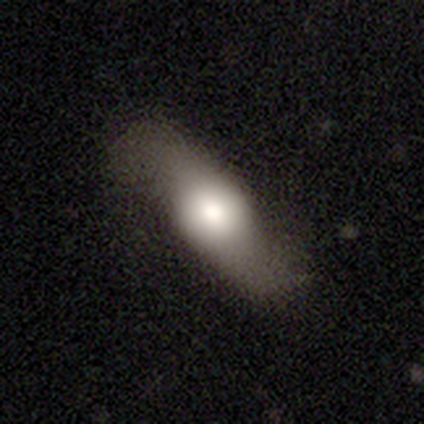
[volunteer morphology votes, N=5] Smooth or featured? featured or disk (80%)
Edge-on disk? no (75%)
Bar? no (67%)
Spiral arms? yes (67%)
Spiral winding? loose (100%)
Spiral arm count? 2 (100%)
Bulge size? dominant (100%)
Merging? none (40%, tied with minor disturbance)